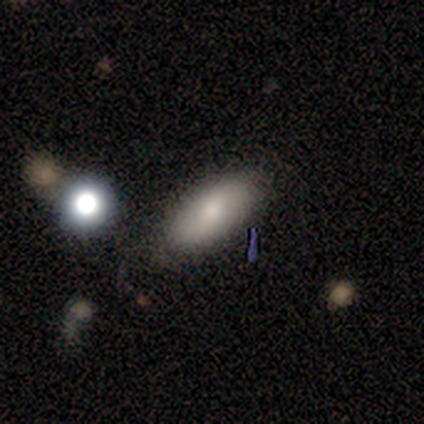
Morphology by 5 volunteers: Q: Smooth or featured?
A: smooth (80%); runner-up: featured or disk (20%)
Q: How rounded?
A: in between (75%); runner-up: cigar-shaped (25%)
Q: Merging?
A: none (100%)